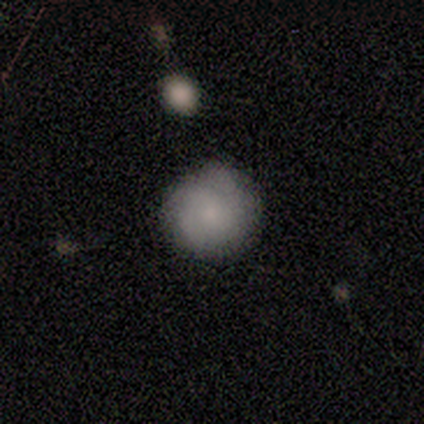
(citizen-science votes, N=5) This appears to be a featured or disk galaxy (60%) with no bar (100%), tight (67%) spiral arms (100%) and a small central bulge (67%). Merging: none (75%).